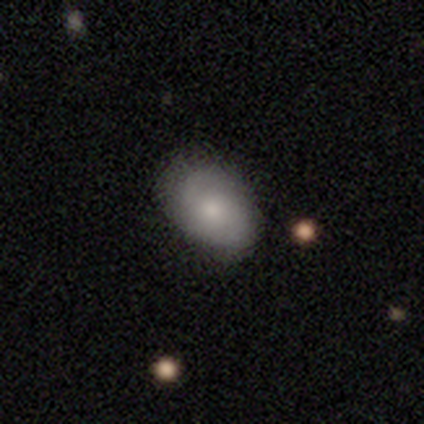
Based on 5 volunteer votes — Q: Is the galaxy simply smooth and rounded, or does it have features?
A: smooth — 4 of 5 (80%).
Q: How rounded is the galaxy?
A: in between — 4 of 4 (100%).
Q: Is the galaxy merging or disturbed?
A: none — 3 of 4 (75%).